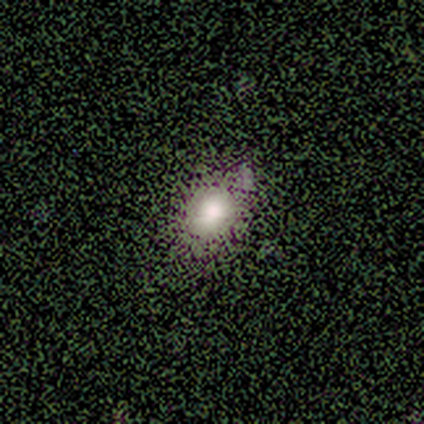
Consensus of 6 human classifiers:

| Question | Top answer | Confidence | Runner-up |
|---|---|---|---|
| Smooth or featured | smooth | 83% | star or artifact (17%) |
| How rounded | in between | 80% | round (20%) |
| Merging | none | 80% | minor disturbance (20%) |